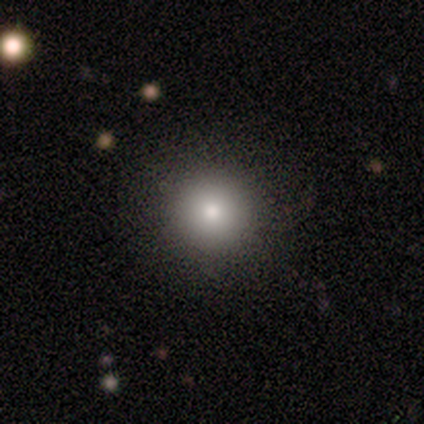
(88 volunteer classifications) A smooth galaxy with no disk features (76%) that is round (96%). Merging: none (90%).